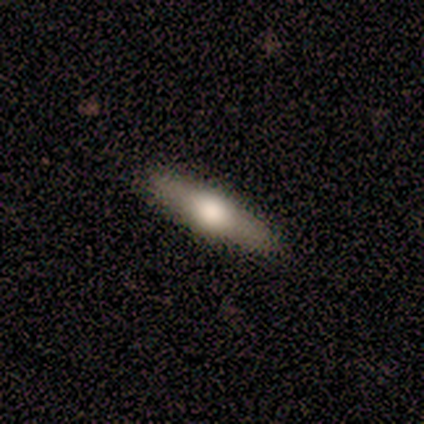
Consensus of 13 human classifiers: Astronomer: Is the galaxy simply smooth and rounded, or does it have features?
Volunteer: featured or disk — 62% (runner-up: smooth, 38%).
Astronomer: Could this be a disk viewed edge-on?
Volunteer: yes — 75%.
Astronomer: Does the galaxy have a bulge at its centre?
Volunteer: rounded — 67%.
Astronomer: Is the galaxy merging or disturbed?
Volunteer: none — 85%.